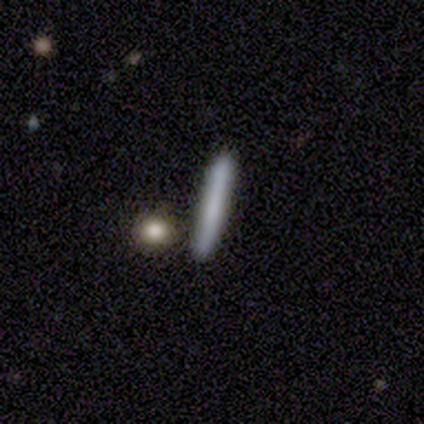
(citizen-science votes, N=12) This is likely a smooth galaxy (67%). How rounded: clearly cigar-shaped (100%). Merging: likely none (75%).